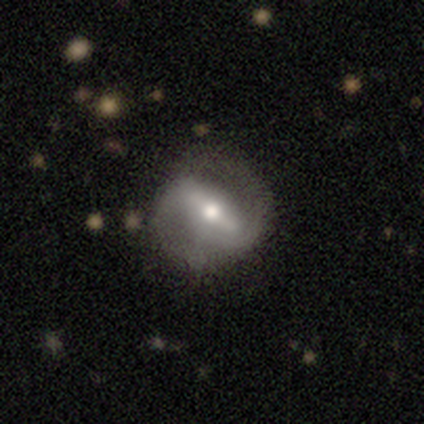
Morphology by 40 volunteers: Smooth or featured? featured or disk (75%)
Edge-on disk? no (90%)
Bar? strong (70%)
Spiral arms? yes (85%)
Spiral winding? medium (52%)
Spiral arm count? 2 (87%)
Bulge size? moderate (74%)
Merging? none (54%)